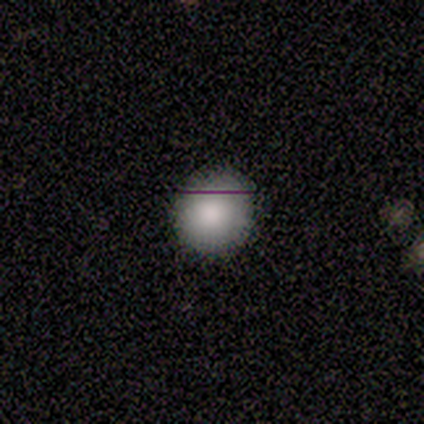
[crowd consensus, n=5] A smooth galaxy with no disk features (80%) that is round (100%). Merging: none (75%).